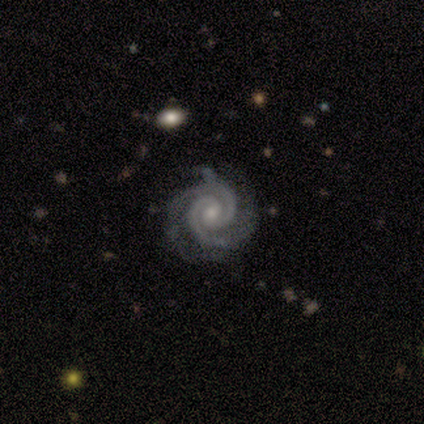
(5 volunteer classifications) Smooth or featured: featured or disk — 80% (smooth — 20%)
Edge-on disk: no — 100%
Bar: no — 75% (strong — 25%)
Spiral arms: yes — 100%
Spiral winding: tight — 75% (medium — 25%)
Spiral arm count: 2 — 75% (4 — 25%)
Bulge size: moderate — 50% (tied with small — 50%)
Merging: minor disturbance — 60% (none — 40%)